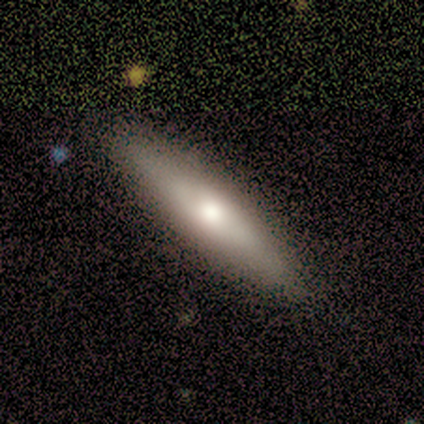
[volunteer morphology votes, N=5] Smooth or featured? 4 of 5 (80%) said smooth. How rounded? 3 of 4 (75%) said in between. Merging? 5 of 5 (100%) said none.